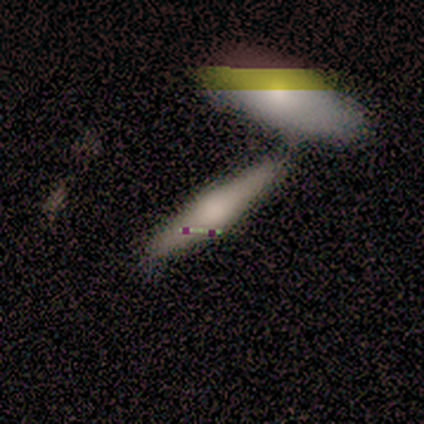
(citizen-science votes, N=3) smooth 67%, featured or disk 33%, star or artifact 0%. Down the decision tree: how rounded — cigar-shaped (100%); merging — merger (67%).